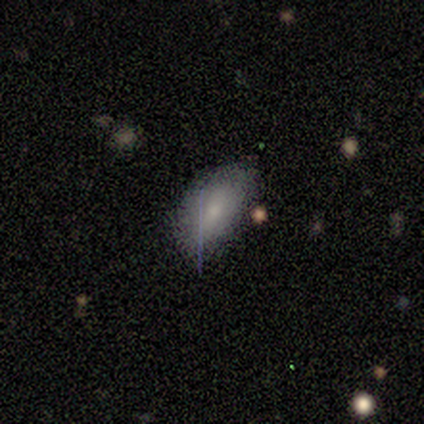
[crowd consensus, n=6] This is likely a smooth galaxy (67%). How rounded: clearly in between (100%). Merging: possibly none (50%).